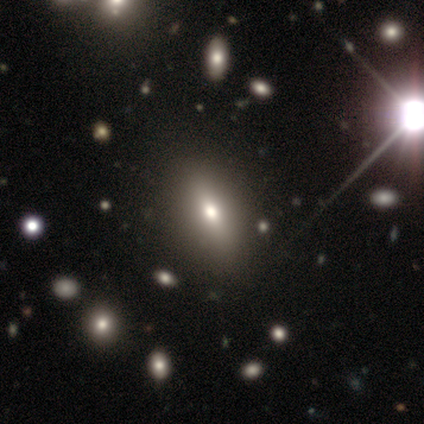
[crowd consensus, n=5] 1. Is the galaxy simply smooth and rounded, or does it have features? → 80% smooth, 20% featured or disk, 0% star or artifact.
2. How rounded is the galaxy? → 100% in between, 0% round, 0% cigar-shaped.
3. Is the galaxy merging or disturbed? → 100% none, 0% minor disturbance, 0% major disturbance, 0% merger.